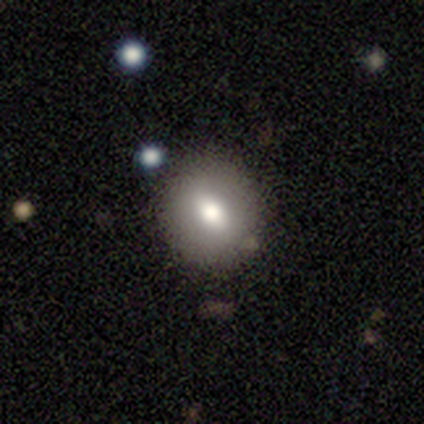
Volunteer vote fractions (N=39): Morphology: type=smooth (77%); roundness=round (70%); merging=none (79%).